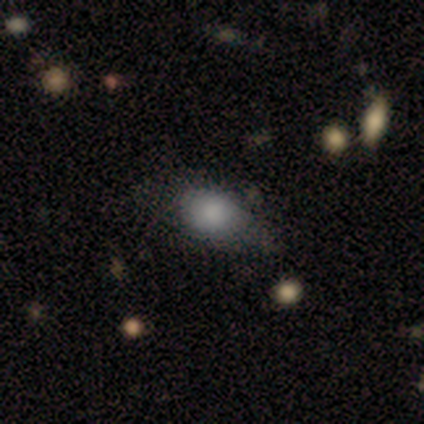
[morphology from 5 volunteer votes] Smooth or featured?
  - smooth: 80% *
  - featured or disk: 20%
  - star or artifact: 0%
How rounded?
  - in between: 75% *
  - round: 25%
  - cigar-shaped: 0%
Merging?
  - none: 80% *
  - minor disturbance: 20%
  - major disturbance: 0%
  - merger: 0%